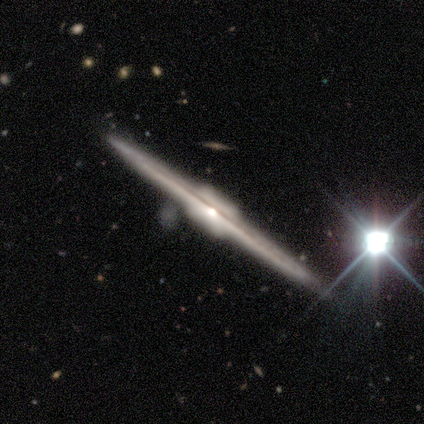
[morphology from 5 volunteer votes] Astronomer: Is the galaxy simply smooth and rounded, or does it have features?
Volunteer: featured or disk — 100%.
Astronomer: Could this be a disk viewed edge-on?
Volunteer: yes — 100%.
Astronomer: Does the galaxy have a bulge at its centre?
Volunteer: boxy — 80%.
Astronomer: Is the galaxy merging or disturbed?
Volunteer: none — 100%.